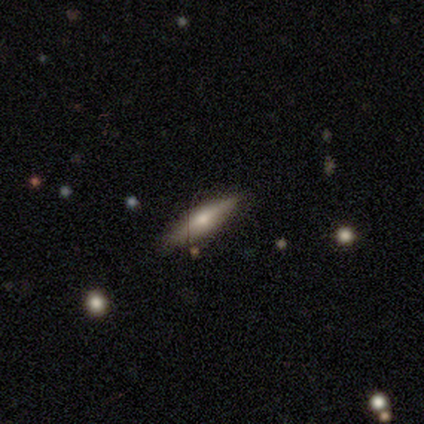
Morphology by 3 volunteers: Smooth or featured: featured or disk — 67% (star or artifact — 33%)
Edge-on disk: yes — 100%
Edge-on bulge: boxy — 50% (tied with rounded — 50%)
Merging: none — 100%